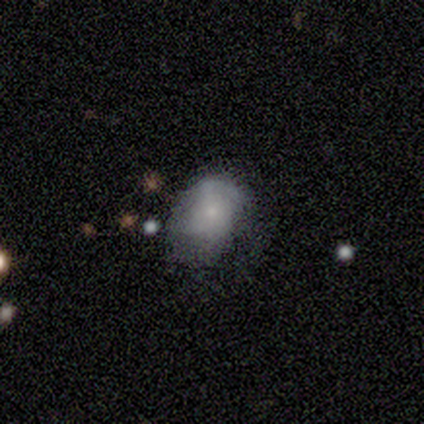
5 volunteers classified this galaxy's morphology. Smooth or featured? 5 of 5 (100%) said smooth. How rounded? 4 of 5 (80%) said in between. Merging? 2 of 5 (40%) said none.